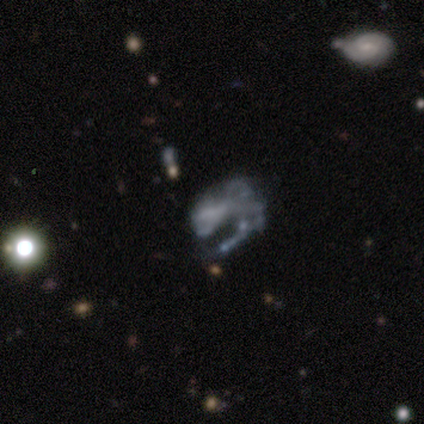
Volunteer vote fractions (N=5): Smooth or featured? featured or disk (80%)
Edge-on disk? no (100%)
Bar? weak (50%)
Spiral arms? yes (50%, tied with no)
Spiral winding? loose (100%)
Spiral arm count? 1 (50%, tied with 2)
Bulge size? moderate (50%)
Merging? none (40%)